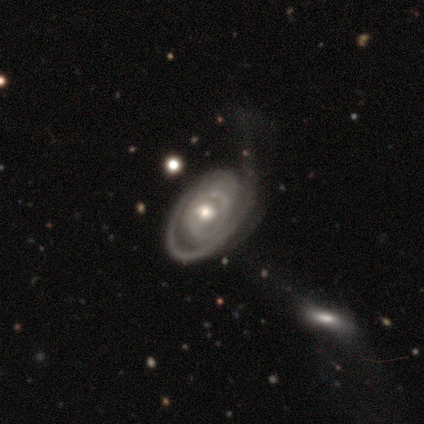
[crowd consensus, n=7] smooth-or-featured: featured or disk: 100% | smooth: 0% | star or artifact: 0%
  disk-edge-on: no: 100% | yes: 0%
    bar: no: 71% | strong: 14% | weak: 14%
    has-spiral-arms: yes: 100% | no: 0%
      spiral-winding: tight: 86% | medium: 14% | loose: 0%
      spiral-arm-count: 1: 86% | 2: 14% | 3: 0% | 4: 0% | more than 4: 0% | can't tell: 0%
    bulge-size: moderate: 71% | small: 29% | dominant: 0% | large: 0% | none: 0%
  merging: major disturbance: 71% | none: 29% | minor disturbance: 0% | merger: 0%